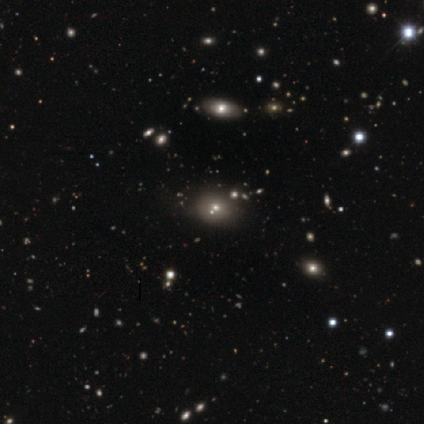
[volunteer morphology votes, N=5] type=smooth (40%, tied with star or artifact); roundness=round (100%); merging=none (100%).